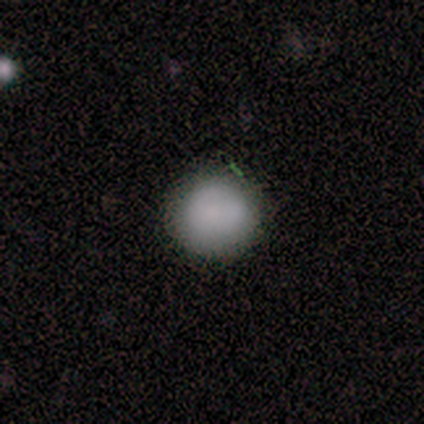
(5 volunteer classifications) smooth 80%, star or artifact 20%, featured or disk 0%. Down the decision tree: how rounded — round (75%); merging — none (100%).